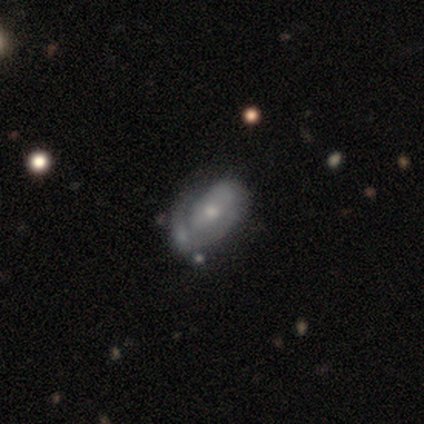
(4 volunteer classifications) smooth-or-featured: featured or disk: 75% | smooth: 25% | star or artifact: 0%
  disk-edge-on: no: 100% | yes: 0%
    bar: no: 67% | weak: 33% | strong: 0%
    has-spiral-arms: yes: 67% | no: 33%
      spiral-winding: tight: 100% | medium: 0% | loose: 0%
      spiral-arm-count: 1: 50% (tied) | can't tell: 50% (tied) | 2: 0% | 3: 0% | 4: 0% | more than 4: 0%
    bulge-size: small: 67% | large: 33% | dominant: 0% | moderate: 0% | none: 0%
  merging: none: 50% | minor disturbance: 25% | major disturbance: 25% | merger: 0%